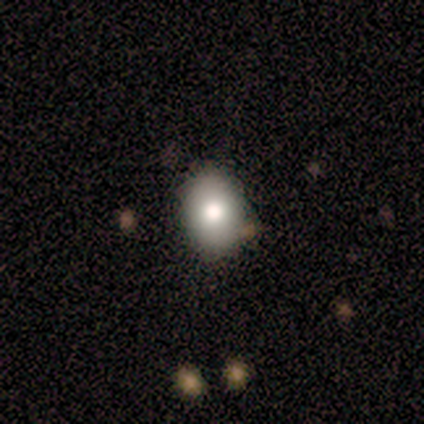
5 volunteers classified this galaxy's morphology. A smooth galaxy with no disk features (60%) that is round (100%). Merging: none (100%).